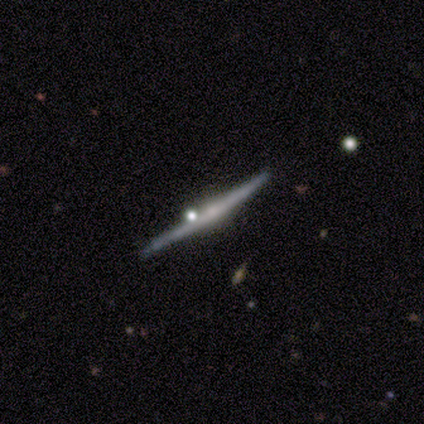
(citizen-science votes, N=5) Morphology: type=featured or disk (60%); edge-on=yes (100%); edge-on bulge=rounded (67%); merging=none (100%).